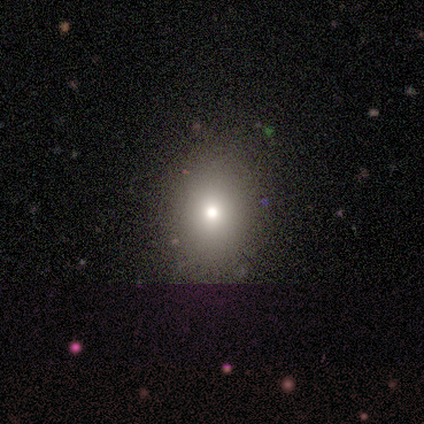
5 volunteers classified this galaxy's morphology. A smooth galaxy with no disk features (80%) that is round (50%, tied with in between). Merging: none (100%).